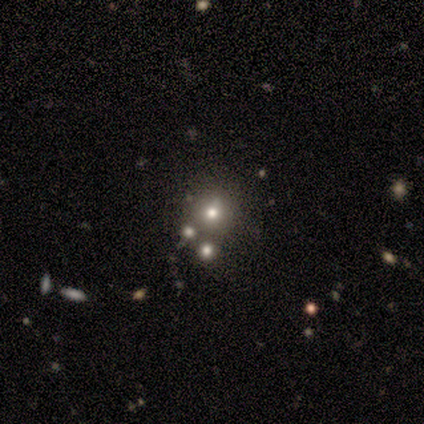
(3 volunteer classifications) Morphology: type=smooth (67%); roundness=round (100%); merging=none (100%).